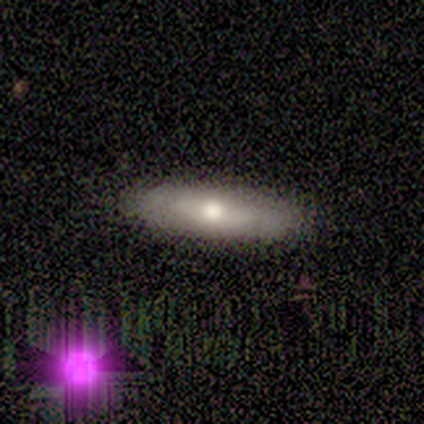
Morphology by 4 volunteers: smooth-or-featured: smooth: 50% (tied) | featured or disk: 50% (tied) | star or artifact: 0%
  how-rounded: cigar-shaped: 100% | round: 0% | in between: 0%
  merging: none: 75% | minor disturbance: 25% | major disturbance: 0% | merger: 0%